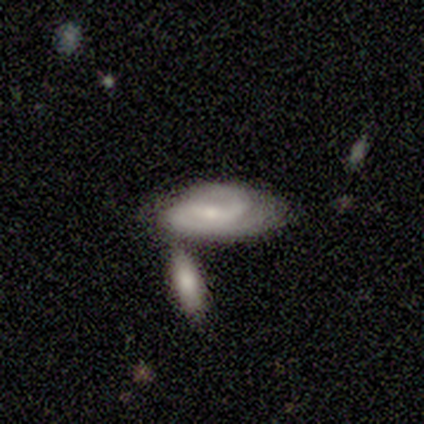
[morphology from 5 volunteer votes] This appears to be a featured or disk galaxy (80%) with a strong bar (50%, tied with weak), 2 (50%, tied with can't tell) tight (75%) spiral arms (100%) and a moderate central bulge (75%). Merging: none (40%).